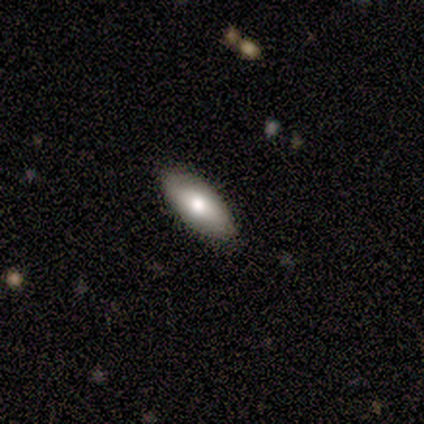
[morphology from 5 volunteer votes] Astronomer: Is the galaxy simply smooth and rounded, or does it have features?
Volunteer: featured or disk — 60% (runner-up: smooth, 40%).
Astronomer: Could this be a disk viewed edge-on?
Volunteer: no — 100%.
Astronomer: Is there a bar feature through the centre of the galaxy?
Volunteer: strong — 33%, tied with weak and no at 33%.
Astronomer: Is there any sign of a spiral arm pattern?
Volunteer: no — 67%.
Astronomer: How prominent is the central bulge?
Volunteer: moderate — 100%.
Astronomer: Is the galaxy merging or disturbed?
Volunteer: none — 100%.